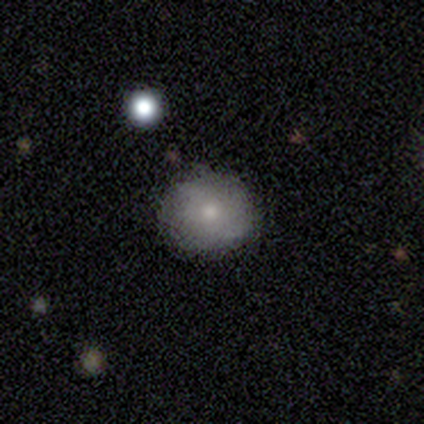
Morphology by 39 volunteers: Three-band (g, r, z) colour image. It shows a smooth galaxy with no disk features (67%) that is round (96%). Merging: none (73%).